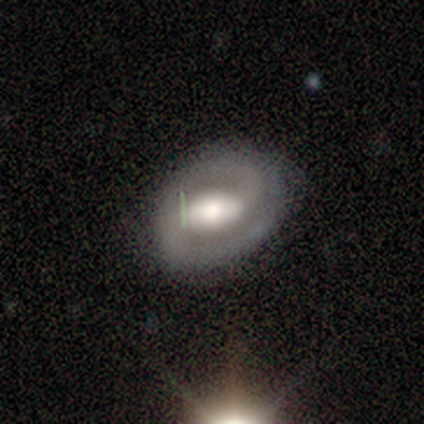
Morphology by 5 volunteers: A featured or disk galaxy (100%) with a weak bar (40%, tied with no), 2 (80%) tight (40%, tied with medium) spiral arms (100%) and a moderate central bulge (80%).

Vote fractions:
- Smooth or featured? featured or disk: 100% / smooth: 0% / star or artifact: 0%
- Edge-on disk? no: 100% / yes: 0%
- Bar? weak: 40% (tied) / no: 40% (tied) / strong: 20%
- Spiral arms? yes: 100% / no: 0%
- Spiral winding? tight: 40% (tied) / medium: 40% (tied) / loose: 20%
- Spiral arm count? 2: 80% / can't tell: 20% / 1: 0% / 3: 0% / 4: 0% / more than 4: 0%
- Bulge size? moderate: 80% / large: 20% / dominant: 0% / small: 0% / none: 0%
- Merging? none: 100% / minor disturbance: 0% / major disturbance: 0% / merger: 0%